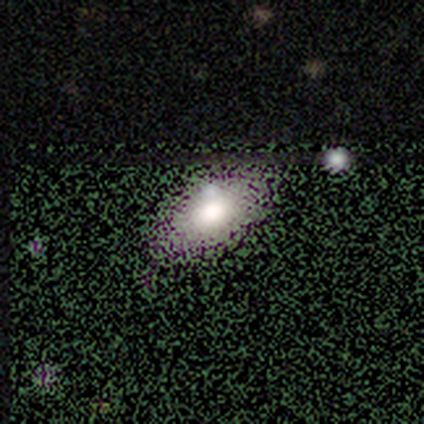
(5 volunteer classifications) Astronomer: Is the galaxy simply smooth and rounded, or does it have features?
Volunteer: smooth — 60% (runner-up: star or artifact, 40%).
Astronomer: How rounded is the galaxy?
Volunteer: in between — 100%.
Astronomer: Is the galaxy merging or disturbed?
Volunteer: minor disturbance — 67%.